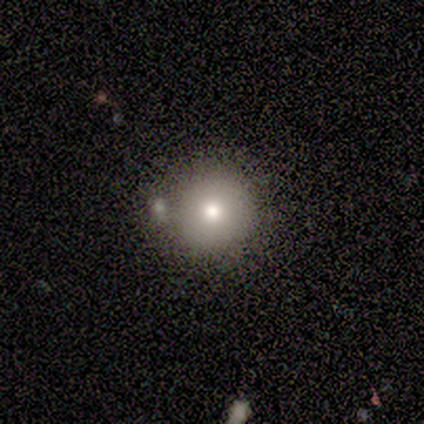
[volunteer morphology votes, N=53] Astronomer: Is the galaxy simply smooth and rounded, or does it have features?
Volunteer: smooth — 72%.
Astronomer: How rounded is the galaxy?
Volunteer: round — 100%.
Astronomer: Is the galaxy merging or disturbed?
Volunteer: none — 79%.